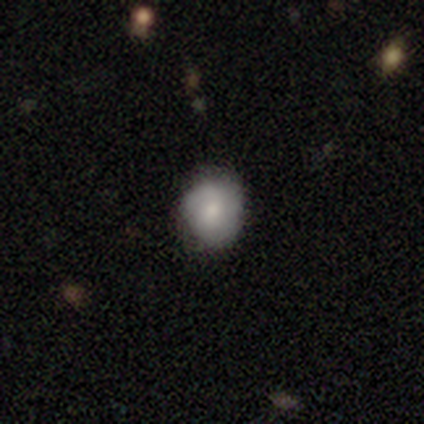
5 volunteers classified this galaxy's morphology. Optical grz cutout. It shows a smooth galaxy with no disk features (80%) that is round (100%). Merging: none (100%).